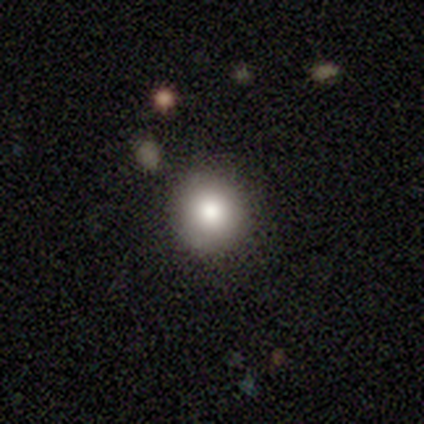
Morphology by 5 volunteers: A smooth galaxy with no disk features (100%) that is round (100%). Merging: none (80%).